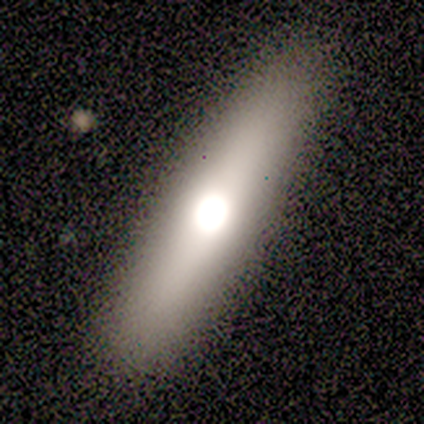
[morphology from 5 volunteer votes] type=smooth (100%); roundness=cigar-shaped (100%); merging=none (80%).